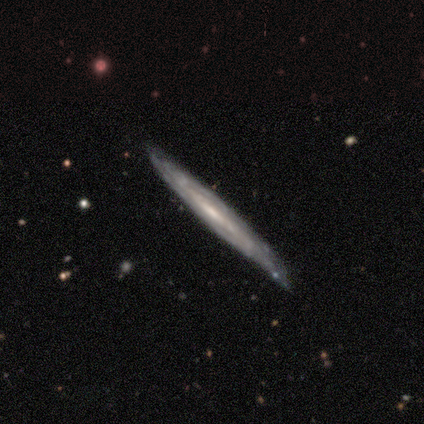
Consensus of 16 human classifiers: featured or disk 88%, smooth 12%, star or artifact 0%. Down the decision tree: edge-on disk — yes (71%); edge-on bulge — none (80%); merging — none (69%).